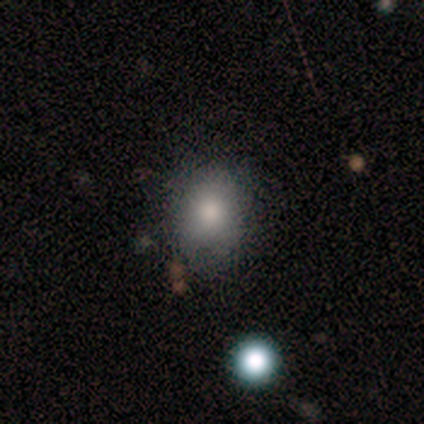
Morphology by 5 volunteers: Volunteers were most divided on "how rounded": round: 67%, in between: 33%, cigar-shaped: 0%. More confident: merging — none (100%); smooth or featured — smooth (60%).